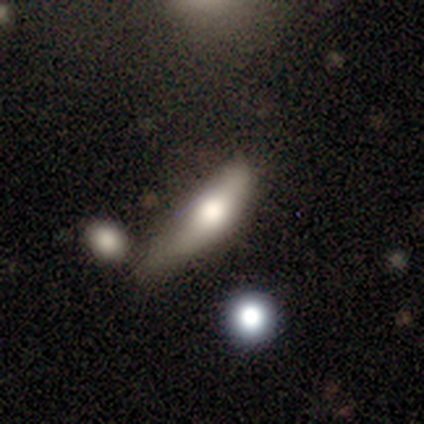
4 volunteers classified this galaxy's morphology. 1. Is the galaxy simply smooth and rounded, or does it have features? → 75% smooth, 25% featured or disk, 0% star or artifact.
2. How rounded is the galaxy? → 100% in between, 0% round, 0% cigar-shaped.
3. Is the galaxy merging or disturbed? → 75% none, 25% major disturbance, 0% minor disturbance, 0% merger.